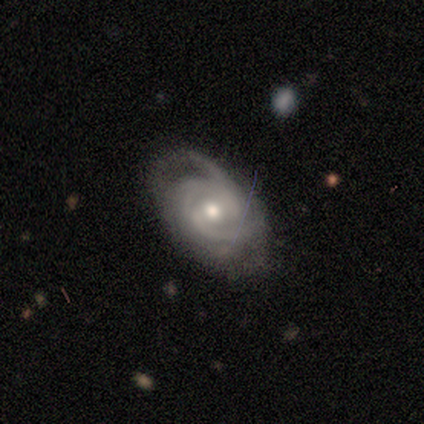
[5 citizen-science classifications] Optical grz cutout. It shows a featured or disk galaxy (100%) with a weak bar (80%), tight (80%) spiral arms (100%) and a moderate central bulge (60%). Merging: none (80%).